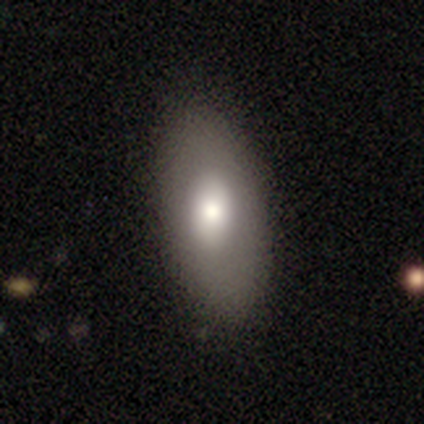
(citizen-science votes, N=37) Volunteers were most divided on "merging": none: 63%, minor disturbance: 9%, major disturbance: 0%, merger: 0%. More confident: how rounded — in between (89%); smooth or featured — smooth (76%).